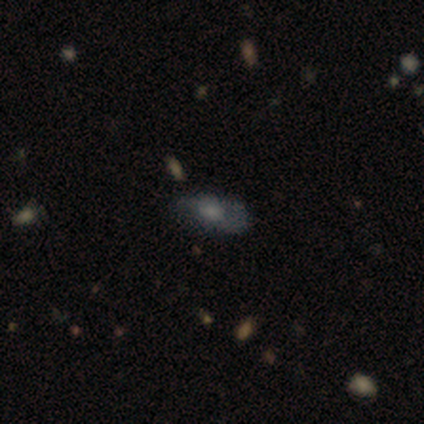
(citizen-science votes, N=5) smooth 80%, featured or disk 20%, star or artifact 0%. Down the decision tree: how rounded — in between (100%); merging — none (40%, tied with minor disturbance).